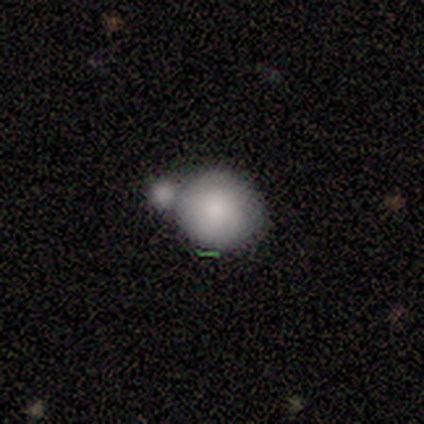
smooth_or_featured: smooth (p=0.50) [alt: featured or disk p=0.33]
how_rounded: round (p=1.00)
merging: merger (p=0.60) [alt: none p=0.20]